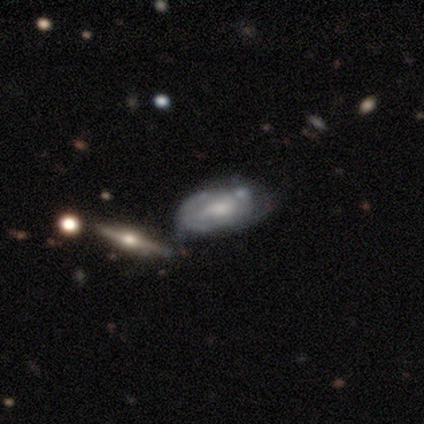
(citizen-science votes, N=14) This is likely a featured or disk galaxy (71%). It is likely not viewed edge-on (60%). Bar: possibly no (50%). Spiral arm pattern: likely yes (67%). Spiral arm count: possibly can't tell (50%). Spiral winding: possibly tight (50%). Central bulge: possibly small (50%). Merging: marginally merger (43%).